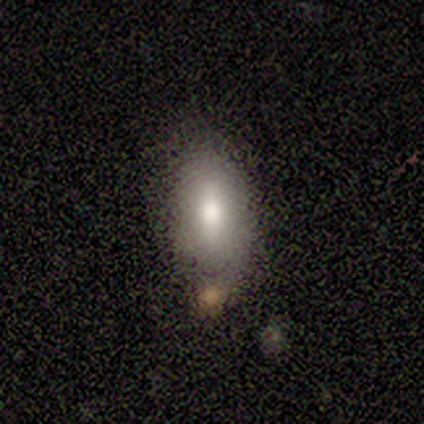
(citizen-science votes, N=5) smooth_or_featured: smooth (p=0.60) [alt: star or artifact p=0.40]
how_rounded: in between (p=1.00)
merging: none (p=0.67) [alt: merger p=0.33]